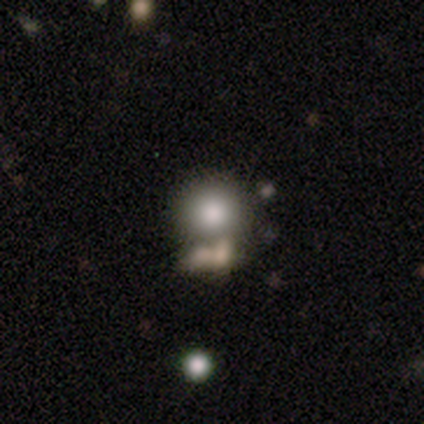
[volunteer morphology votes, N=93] A smooth galaxy with no disk features (73%) that is round (94%).

Vote fractions:
- Smooth or featured? smooth: 73% / featured or disk: 14% / star or artifact: 13%
- How rounded? round: 94% / in between: 6% / cigar-shaped: 0%
- Merging? none: 49% / merger: 35% / minor disturbance: 11% / major disturbance: 5%